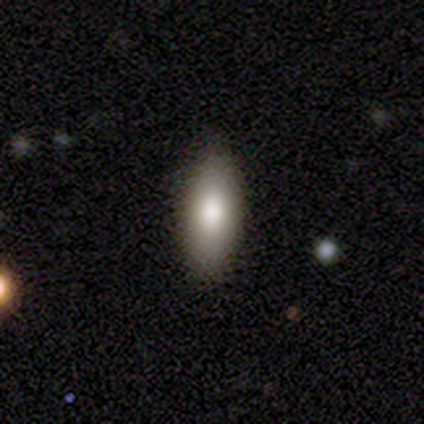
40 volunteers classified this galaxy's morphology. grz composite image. It shows a smooth galaxy with no disk features (90%) that is in between round and cigar-shaped (69%). Merging: none (92%).